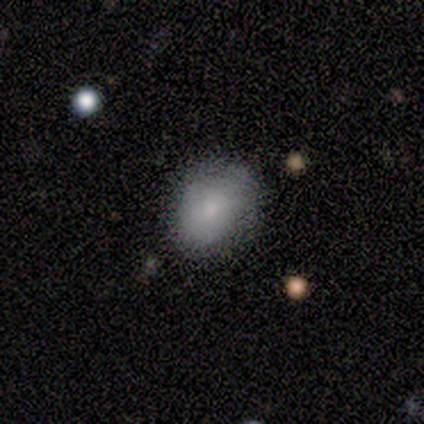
Smooth or featured? 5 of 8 (62%) said smooth. How rounded? 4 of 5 (80%) said in between. Merging? 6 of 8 (75%) said none.